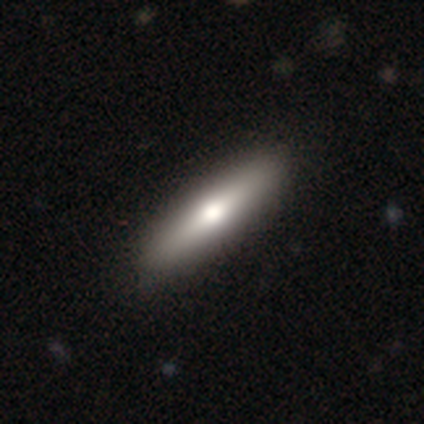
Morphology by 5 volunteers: Smooth or featured?
  - featured or disk: 60% *
  - smooth: 40%
  - star or artifact: 0%
Edge-on disk?
  - yes: 100% *
  - no: 0%
Edge-on bulge?
  - rounded: 100% *
  - boxy: 0%
  - none: 0%
Merging?
  - none: 100% *
  - minor disturbance: 0%
  - major disturbance: 0%
  - merger: 0%